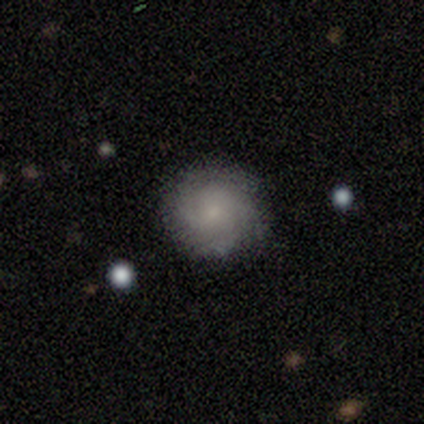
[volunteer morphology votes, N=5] A featured or disk galaxy (60%) with no bar (67%), tight (67%) spiral arms (100%) and a moderate central bulge (33%, tied with small and none). Merging: none (100%).